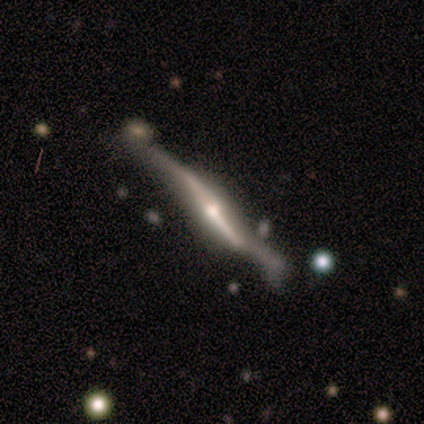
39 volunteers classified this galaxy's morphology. Smooth or featured?
  - featured or disk: 92% *
  - smooth: 5%
  - star or artifact: 3%
Edge-on disk?
  - yes: 92% *
  - no: 8%
Edge-on bulge?
  - rounded: 76% *
  - boxy: 18%
  - none: 6%
Merging?
  - minor disturbance: 37% *
  - major disturbance: 26%
  - none: 21%
  - merger: 16%